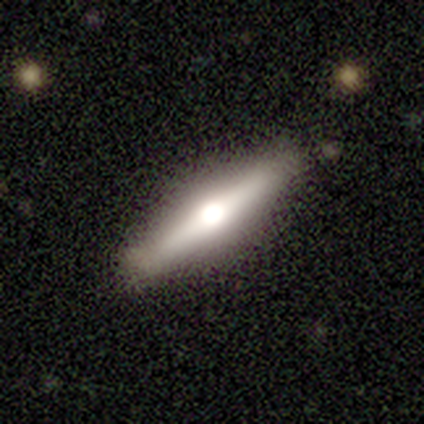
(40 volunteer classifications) Volunteers were most divided on "smooth or featured": featured or disk: 75%, smooth: 20%, star or artifact: 5%. More confident: edge-on disk — yes (97%); edge-on bulge — rounded (93%); merging — none (87%).